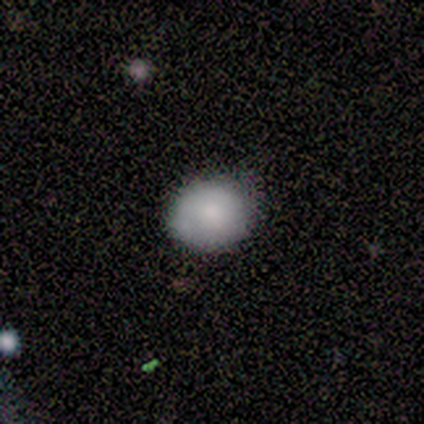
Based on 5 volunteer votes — This is clearly a smooth galaxy (80%). How rounded: likely round (75%). Merging: likely none (60%).